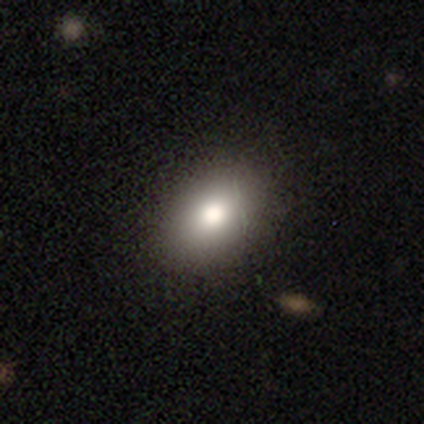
Smooth or featured? smooth (80%)
How rounded? in between (100%)
Merging? none (100%)